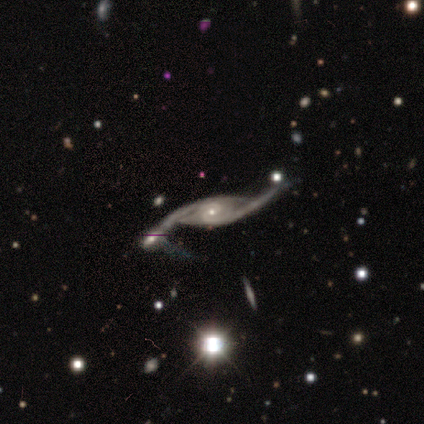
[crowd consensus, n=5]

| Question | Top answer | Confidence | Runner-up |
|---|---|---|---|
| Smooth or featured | featured or disk | 100% | — |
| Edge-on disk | no | 80% | yes (20%) |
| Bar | no | 75% | weak (25%) |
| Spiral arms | yes | 100% | — |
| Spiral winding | tight | 50% | tied: loose (50%) |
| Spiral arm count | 2 | 75% | 1 (25%) |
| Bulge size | small | 100% | — |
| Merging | none | 40% | tied: merger (40%) |